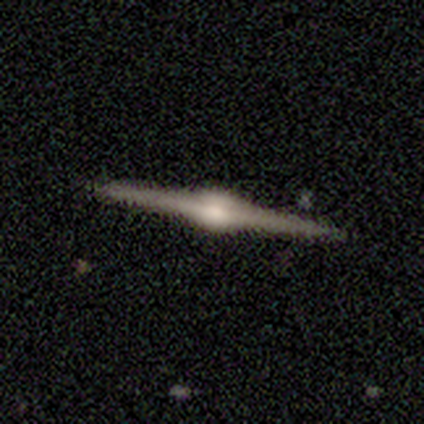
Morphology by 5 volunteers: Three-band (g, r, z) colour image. It shows a featured or disk galaxy (100%) viewed edge-on (100%) with a rounded central bulge (100%). Merging: none (100%).